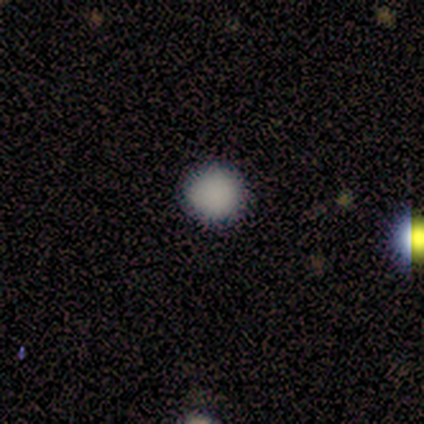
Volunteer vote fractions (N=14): Smooth or featured: smooth — 93% (star or artifact — 7%)
How rounded: round — 100%
Merging: none — 100%